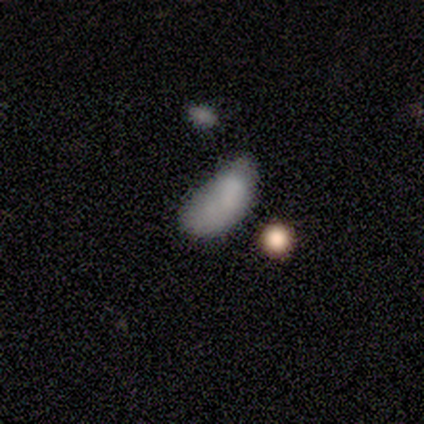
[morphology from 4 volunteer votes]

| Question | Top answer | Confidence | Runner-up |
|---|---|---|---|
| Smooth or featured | smooth | 75% | featured or disk (25%) |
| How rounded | in between | 100% | — |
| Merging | minor disturbance | 50% | none (25%) |